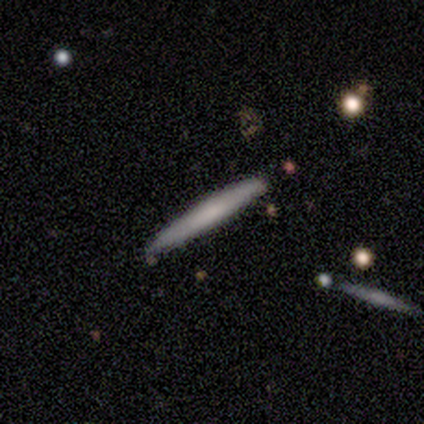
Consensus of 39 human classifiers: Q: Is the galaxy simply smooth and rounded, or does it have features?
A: smooth — 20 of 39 (51%).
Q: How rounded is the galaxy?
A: cigar-shaped — 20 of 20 (100%).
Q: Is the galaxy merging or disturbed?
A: none — 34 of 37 (92%).